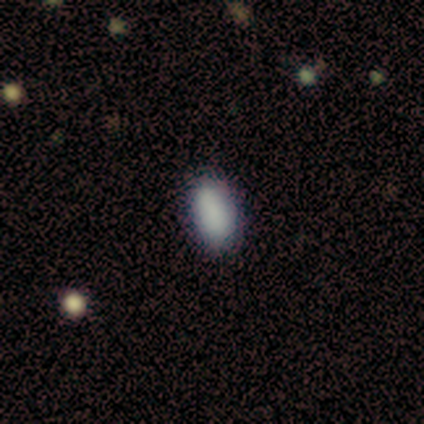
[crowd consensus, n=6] smooth-or-featured: smooth: 83% | star or artifact: 17% | featured or disk: 0%
  how-rounded: in between: 80% | round: 20% | cigar-shaped: 0%
  merging: none: 100% | minor disturbance: 0% | major disturbance: 0% | merger: 0%